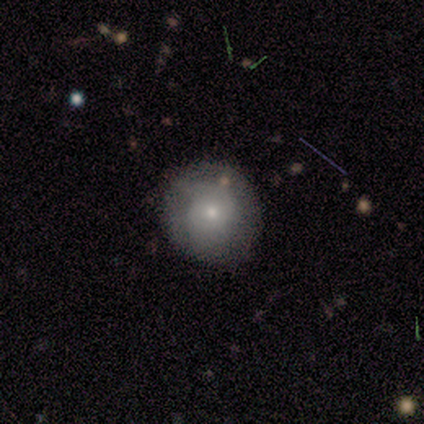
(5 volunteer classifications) smooth_or_featured: smooth (p=0.60) [alt: featured or disk p=0.20]
how_rounded: round (p=1.00)
merging: none (p=1.00)